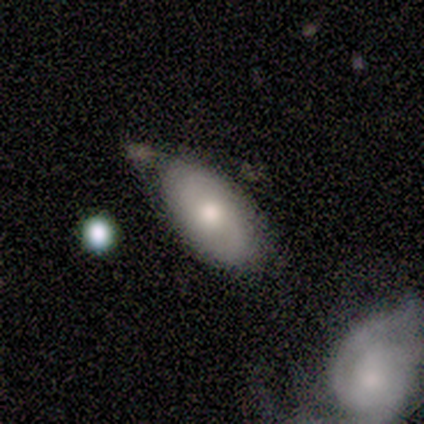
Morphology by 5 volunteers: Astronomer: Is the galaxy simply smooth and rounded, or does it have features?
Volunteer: smooth — 80%.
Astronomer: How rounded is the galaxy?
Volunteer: in between — 100%.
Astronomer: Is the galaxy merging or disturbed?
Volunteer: minor disturbance — 60% (runner-up: none, 40%).